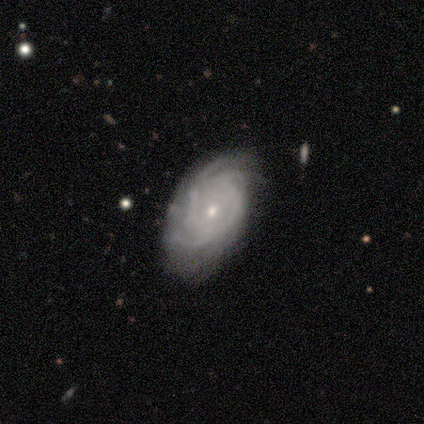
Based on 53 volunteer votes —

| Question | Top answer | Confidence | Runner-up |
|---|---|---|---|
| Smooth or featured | featured or disk | 85% | smooth (8%) |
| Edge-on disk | no | 96% | yes (4%) |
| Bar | no | 72% | weak (26%) |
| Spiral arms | yes | 93% | no (7%) |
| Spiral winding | tight | 68% | medium (30%) |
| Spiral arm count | can't tell | 32% | 4 (28%) |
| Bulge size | small | 74% | moderate (21%) |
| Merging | none | 73% | minor disturbance (18%) |